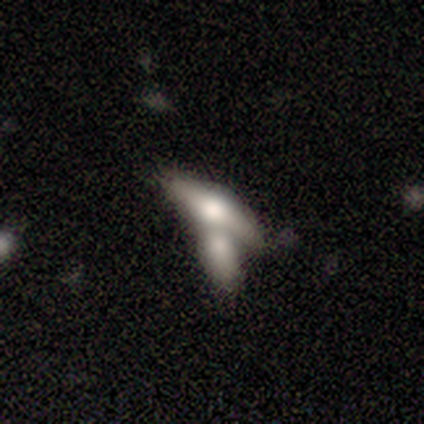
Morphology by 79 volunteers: Smooth or featured?
  - featured or disk: 51% *
  - smooth: 43%
  - star or artifact: 6%
Edge-on disk?
  - yes: 70% *
  - no: 30%
Edge-on bulge?
  - rounded: 93% *
  - boxy: 7%
  - none: 0%
Merging?
  - merger: 77% *
  - none: 12%
  - minor disturbance: 1%
  - major disturbance: 0%